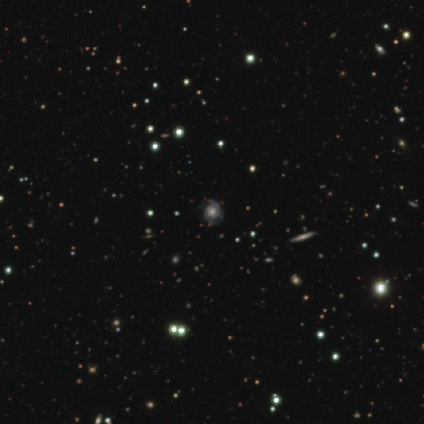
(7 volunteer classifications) featured or disk 71%, smooth 14%, star or artifact 14%. Down the decision tree: edge-on disk — no (100%); bar — no (80%); spiral arms — yes (80%); spiral arm count — 2 (100%); spiral winding — tight (75%); bulge size — large (60%); merging — none (100%).